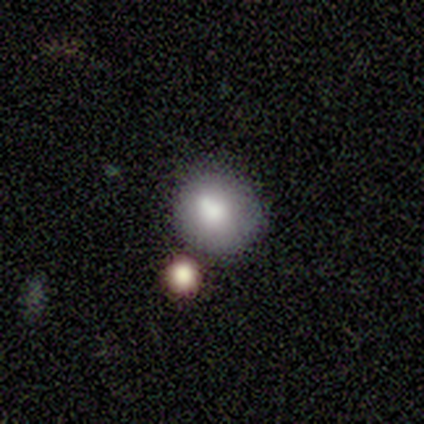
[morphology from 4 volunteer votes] smooth 100%, featured or disk 0%, star or artifact 0%. Down the decision tree: how rounded — round (100%); merging — none (75%).